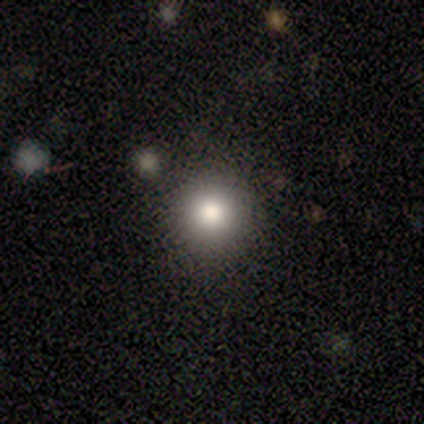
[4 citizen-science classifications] This is likely a smooth galaxy (75%). How rounded: clearly round (100%). Merging: clearly none (100%).